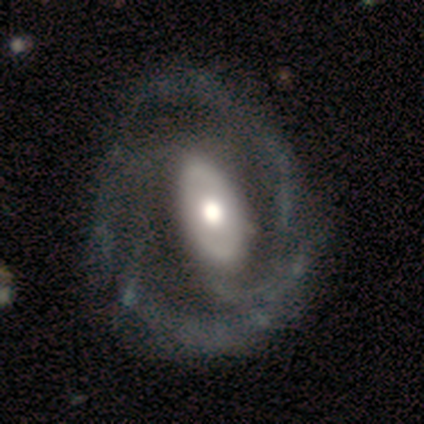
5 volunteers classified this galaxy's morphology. A featured or disk galaxy (80%) with no bar (50%), 2 (67%) tight (33%, tied with medium and loose) spiral arms (75%) and a moderate central bulge (75%). Merging: none (80%).